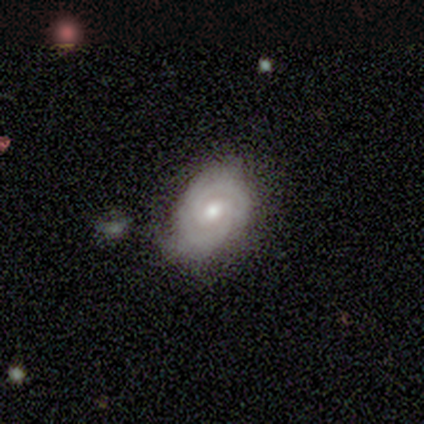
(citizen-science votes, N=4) featured or disk 100%, smooth 0%, star or artifact 0%. Down the decision tree: edge-on disk — no (100%); bar — no (75%); spiral arms — yes (75%); spiral arm count — can't tell (67%); spiral winding — tight (67%); bulge size — small (75%); merging — none (75%).